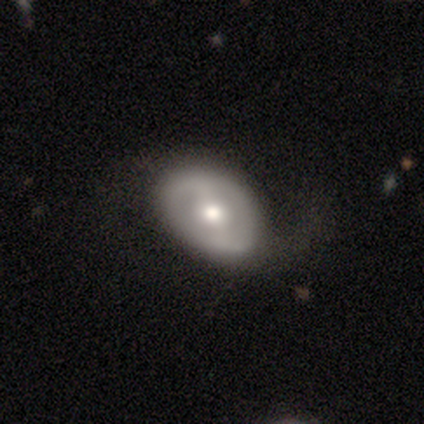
smooth-or-featured: featured or disk: 67% | smooth: 33% | star or artifact: 0%
  disk-edge-on: no: 100% | yes: 0%
    bar: weak: 50% | strong: 25% | no: 25%
    has-spiral-arms: yes: 50% (tied) | no: 50% (tied)
      spiral-winding: loose: 100% | tight: 0% | medium: 0%
      spiral-arm-count: 2: 100% | 1: 0% | 3: 0% | 4: 0% | more than 4: 0% | can't tell: 0%
    bulge-size: moderate: 100% | dominant: 0% | large: 0% | small: 0% | none: 0%
  merging: none: 67% | minor disturbance: 33% | major disturbance: 0% | merger: 0%